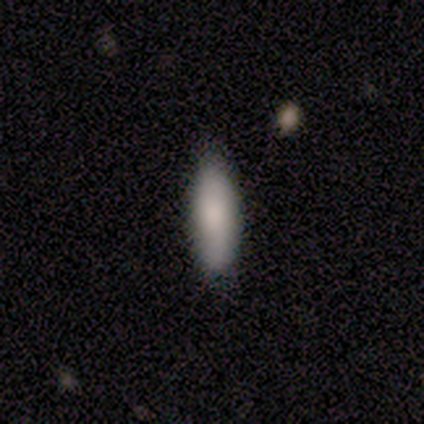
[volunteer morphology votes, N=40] Smooth or featured: smooth — 92% (featured or disk — 5%)
How rounded: in between — 62% (cigar-shaped — 38%)
Merging: none — 62% (minor disturbance — 8%)